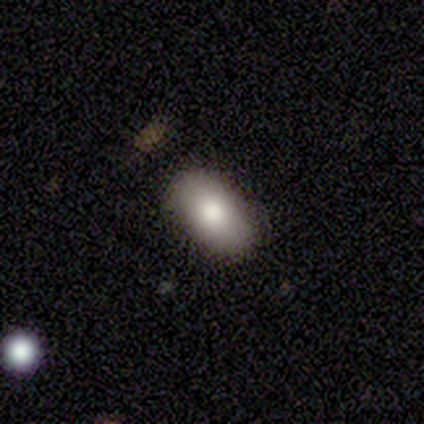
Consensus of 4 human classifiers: Overall: smooth (75%). How rounded: in between (100%). Merging: none (50%; minor disturbance 25%).